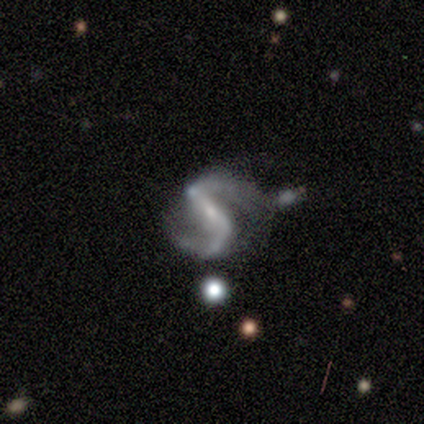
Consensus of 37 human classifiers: A featured or disk galaxy (97%) with a strong bar (71%), 2 (100%) medium (55%) spiral arms (94%) and a small central bulge (69%). Merging: none (38%).